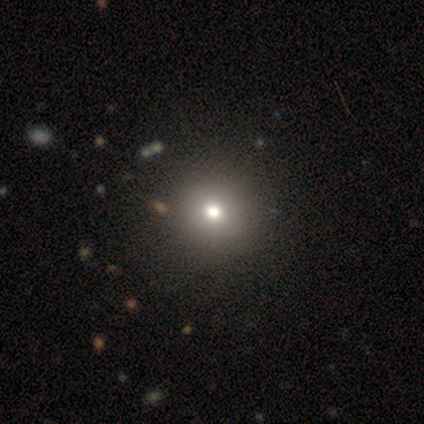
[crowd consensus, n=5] smooth 60%, featured or disk 20%, star or artifact 20%. Down the decision tree: how rounded — round (100%); merging — none (75%).